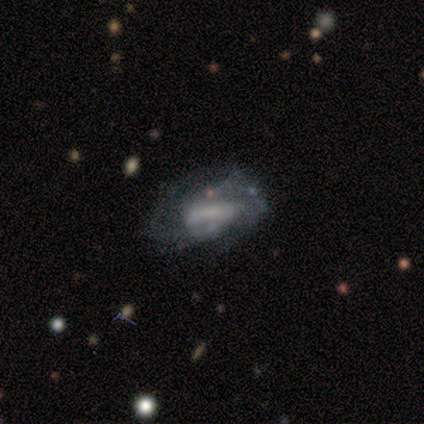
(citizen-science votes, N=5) featured or disk 80%, smooth 20%, star or artifact 0%. Down the decision tree: edge-on disk — no (100%); bar — strong (75%); spiral arms — yes (75%); spiral arm count — 2 (67%); spiral winding — medium (67%); bulge size — large (25%, tied with moderate, small and none); merging — none (60%).